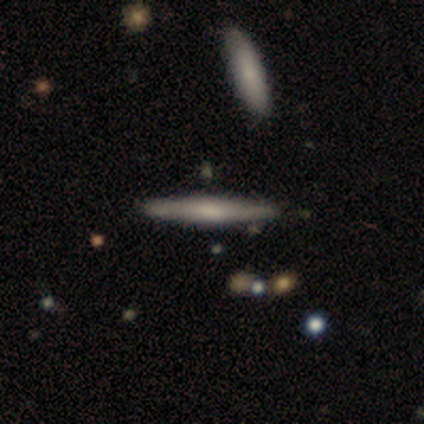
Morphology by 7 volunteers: smooth-or-featured: smooth: 57% | featured or disk: 43% | star or artifact: 0%
  how-rounded: cigar-shaped: 100% | round: 0% | in between: 0%
  merging: none: 86% | minor disturbance: 14% | major disturbance: 0% | merger: 0%